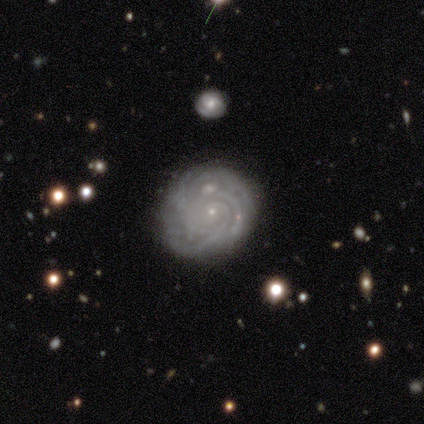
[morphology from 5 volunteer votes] Q: Smooth or featured?
A: featured or disk (100%)
Q: Edge-on disk?
A: no (100%)
Q: Bar?
A: no (100%)
Q: Spiral arms?
A: yes (100%)
Q: Spiral winding?
A: tight (80%); runner-up: medium (20%)
Q: Spiral arm count?
A: can't tell (60%); runner-up: 3 (20%)
Q: Bulge size?
A: small (100%)
Q: Merging?
A: none (40%); tied with: minor disturbance (40%)